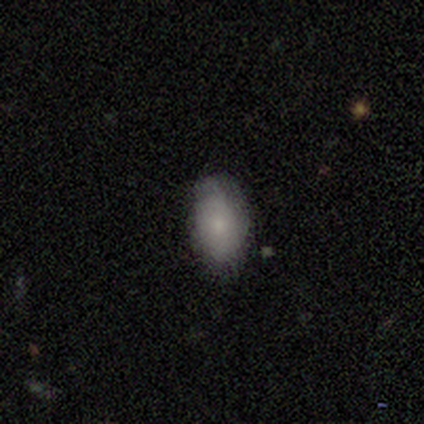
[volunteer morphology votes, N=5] Q: Smooth or featured?
A: smooth (100%)
Q: How rounded?
A: in between (100%)
Q: Merging?
A: none (60%); runner-up: minor disturbance (20%)